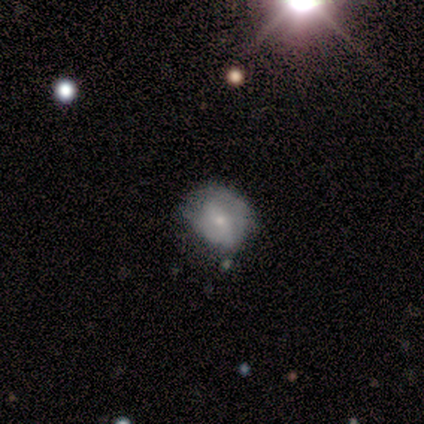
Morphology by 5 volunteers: type=smooth (80%); roundness=round (75%); merging=none (80%).